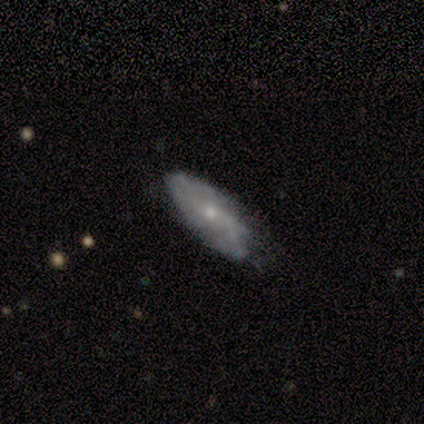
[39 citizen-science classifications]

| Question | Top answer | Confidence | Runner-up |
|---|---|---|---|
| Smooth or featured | featured or disk | 85% | smooth (15%) |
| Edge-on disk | no | 88% | yes (12%) |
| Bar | no | 59% | weak (34%) |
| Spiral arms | yes | 76% | no (24%) |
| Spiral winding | medium | 55% | loose (27%) |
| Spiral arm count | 2 | 64% | can't tell (23%) |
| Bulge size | small | 79% | moderate (21%) |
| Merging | none | 59% | minor disturbance (38%) |